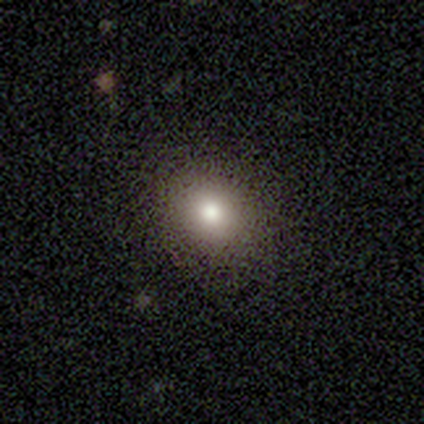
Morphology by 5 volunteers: smooth_or_featured: featured or disk (p=0.60) [alt: smooth p=0.20]
disk_edge_on: no (p=1.00)
bar: no (p=1.00)
has_spiral_arms: no (p=1.00)
bulge_size: moderate (p=0.67) [alt: large p=0.33]
merging: none (p=1.00)